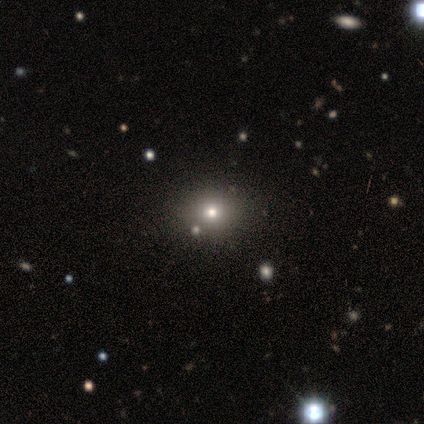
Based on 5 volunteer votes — Morphology: type=smooth (60%); roundness=in between (67%); merging=none (100%).